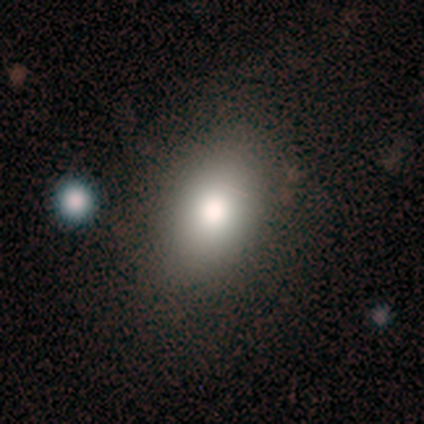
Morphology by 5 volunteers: A smooth galaxy with no disk features (100%) that is in between round and cigar-shaped (100%). Merging: none (80%).